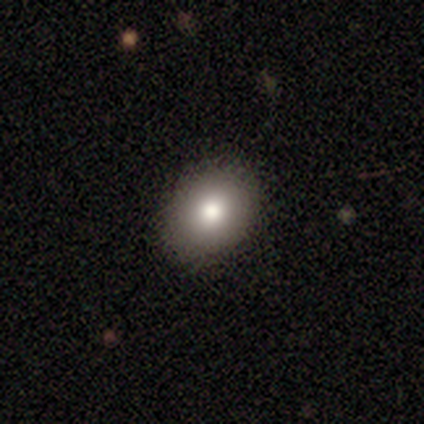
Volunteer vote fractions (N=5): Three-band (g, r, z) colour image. It shows a smooth galaxy with no disk features (80%) that is in between round and cigar-shaped (75%). Merging: none (100%).